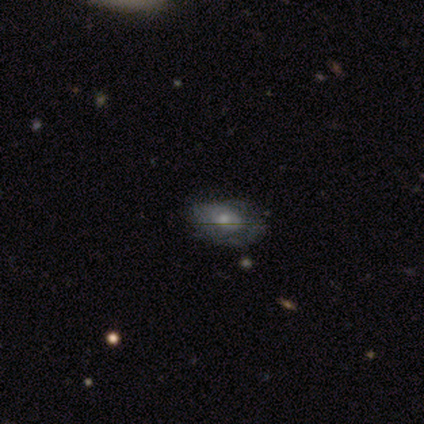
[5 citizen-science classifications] Overall: featured or disk (80%). Edge-on disk: no (75%). Bar: no (100%). Spiral arms: no (67%; yes 33%). Bulge size: small (67%; moderate 33%). Merging: none (60%; minor disturbance 40%).